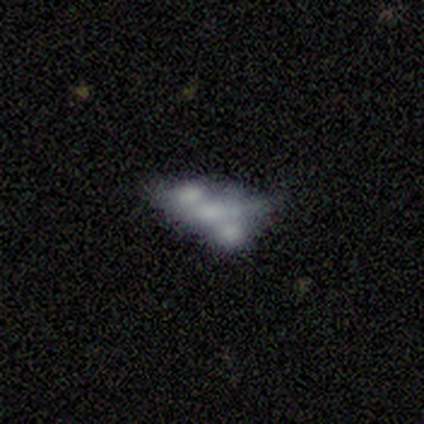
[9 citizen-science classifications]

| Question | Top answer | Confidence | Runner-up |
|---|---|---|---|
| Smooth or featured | smooth | 67% | star or artifact (22%) |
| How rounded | in between | 83% | round (17%) |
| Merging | merger | 57% | none (14%) |